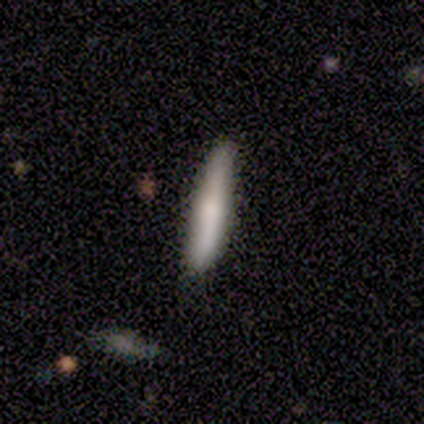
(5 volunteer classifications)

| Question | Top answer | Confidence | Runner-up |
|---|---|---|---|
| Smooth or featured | smooth | 60% | featured or disk (40%) |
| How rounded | cigar-shaped | 100% | — |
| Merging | none | 100% | — |